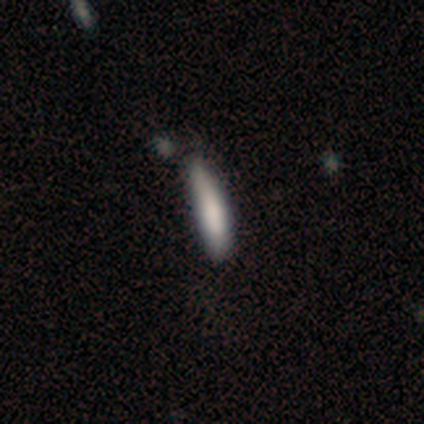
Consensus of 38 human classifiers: smooth-or-featured: smooth: 84% | featured or disk: 8% | star or artifact: 8%
  how-rounded: cigar-shaped: 91% | in between: 9% | round: 0%
  merging: none: 54% | minor disturbance: 31% | merger: 9% | major disturbance: 6%